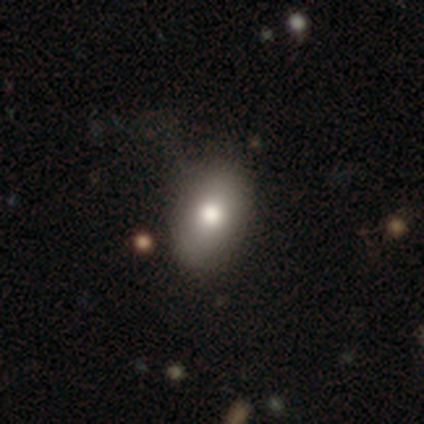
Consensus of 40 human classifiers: Smooth or featured? 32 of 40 (80%) said smooth. How rounded? 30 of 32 (94%) said in between. Merging? 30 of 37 (81%) said none.